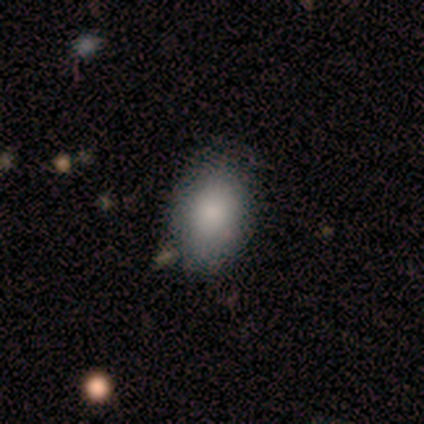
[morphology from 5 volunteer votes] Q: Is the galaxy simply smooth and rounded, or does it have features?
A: smooth — 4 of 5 (80%).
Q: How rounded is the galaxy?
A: in between — 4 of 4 (100%).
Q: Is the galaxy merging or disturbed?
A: none — 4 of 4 (100%).